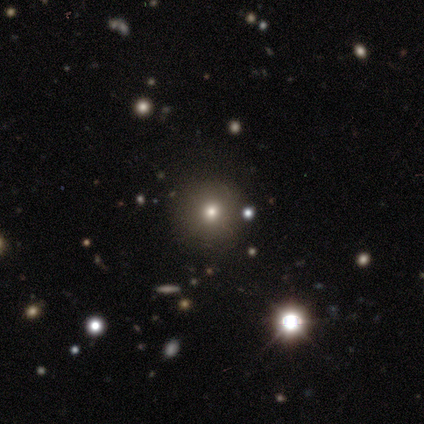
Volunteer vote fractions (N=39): Smooth or featured? 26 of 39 (67%) said smooth. How rounded? 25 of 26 (96%) said round. Merging? 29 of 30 (97%) said none.